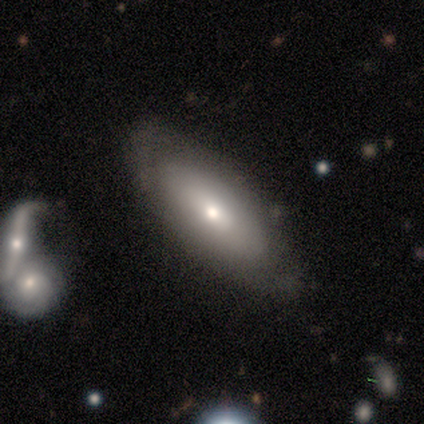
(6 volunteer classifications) Smooth or featured? smooth (67%)
How rounded? in between (75%)
Merging? none (100%)